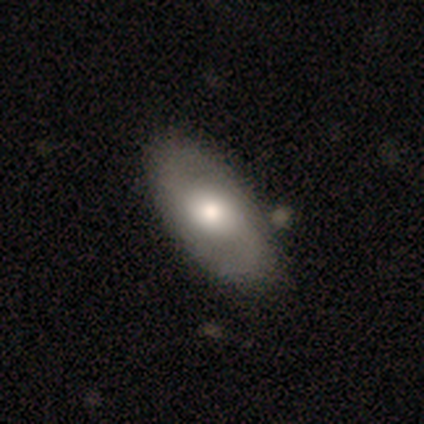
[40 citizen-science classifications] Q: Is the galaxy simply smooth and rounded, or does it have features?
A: featured or disk — 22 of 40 (55%).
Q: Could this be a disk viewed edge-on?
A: no — 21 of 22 (95%).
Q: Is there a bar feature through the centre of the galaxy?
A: no — 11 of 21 (52%).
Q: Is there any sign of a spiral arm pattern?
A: yes — 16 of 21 (76%).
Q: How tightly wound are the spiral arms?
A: medium — 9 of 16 (56%).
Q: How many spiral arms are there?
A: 2 — 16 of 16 (100%).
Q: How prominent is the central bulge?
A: large — 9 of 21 (43%).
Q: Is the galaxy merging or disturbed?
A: none — 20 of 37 (54%).